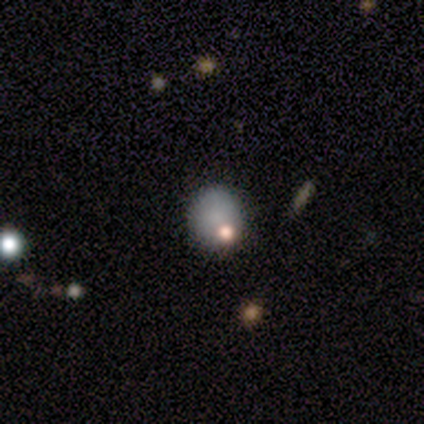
This is clearly a smooth galaxy (100%). How rounded: clearly round (100%). Merging: clearly none (80%).